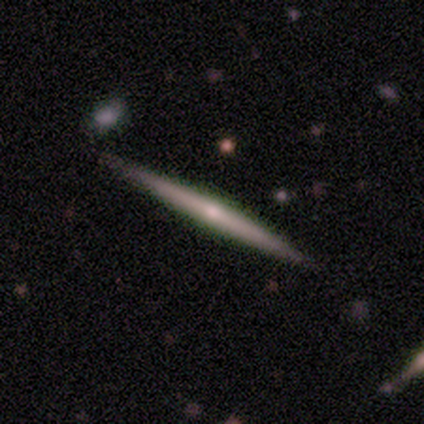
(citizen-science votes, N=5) Smooth or featured? featured or disk (80%)
Edge-on disk? yes (100%)
Edge-on bulge? none (50%, tied with rounded)
Merging? none (80%)